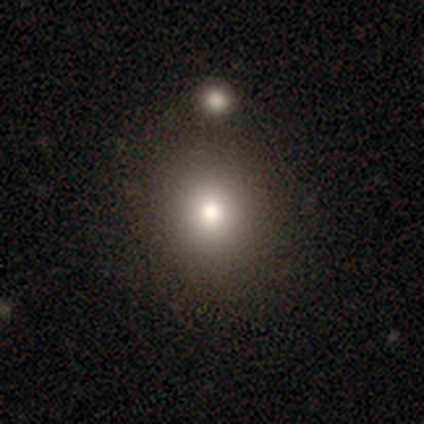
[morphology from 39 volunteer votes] A smooth galaxy with no disk features (69%) that is round (67%). Merging: none (80%).